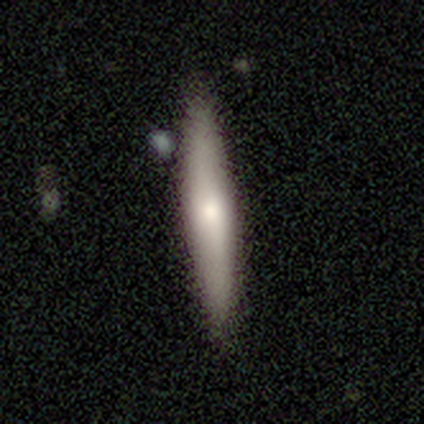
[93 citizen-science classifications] smooth-or-featured: smooth: 65% | featured or disk: 33% | star or artifact: 2%
  how-rounded: cigar-shaped: 90% | in between: 8% | round: 2%
  merging: none: 87% | minor disturbance: 9% | major disturbance: 2% | merger: 2%